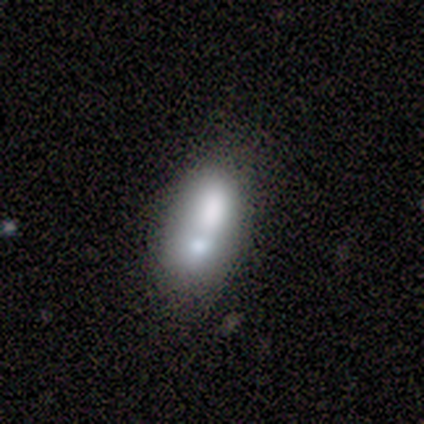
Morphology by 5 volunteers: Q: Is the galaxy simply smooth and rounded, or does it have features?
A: smooth — 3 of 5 (60%).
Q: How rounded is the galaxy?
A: in between — 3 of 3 (100%).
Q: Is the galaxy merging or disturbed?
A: merger — 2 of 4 (50%).